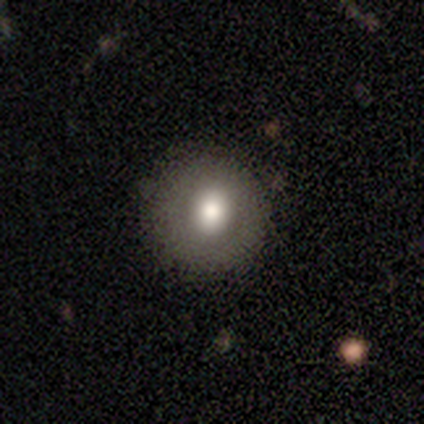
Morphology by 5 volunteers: Smooth or featured? smooth (60%)
How rounded? round (100%)
Merging? none (100%)